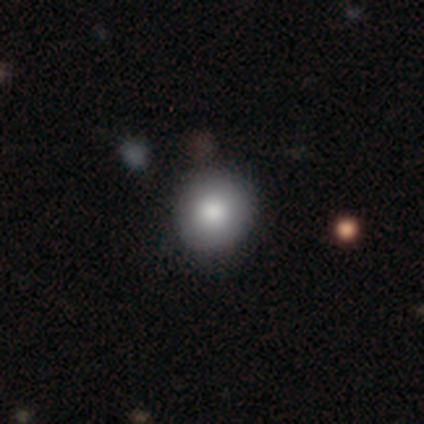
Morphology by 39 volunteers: Overall: smooth (85%). How rounded: round (94%). Merging: none (69%).